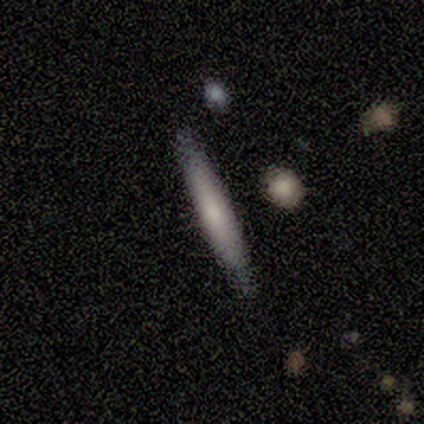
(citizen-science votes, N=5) This appears to be a featured or disk galaxy (60%) viewed edge-on (67%) with a boxy central bulge (50%, tied with rounded). Merging: none (75%).